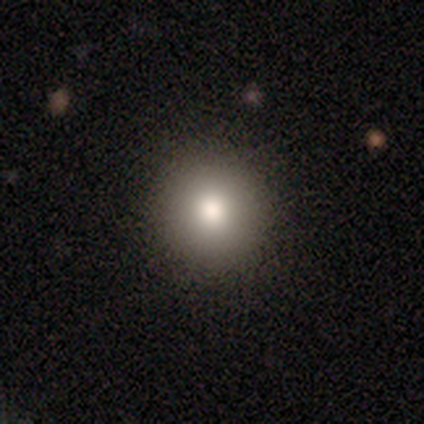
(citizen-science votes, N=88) Overall: smooth (82%). How rounded: round (94%). Merging: none (96%).